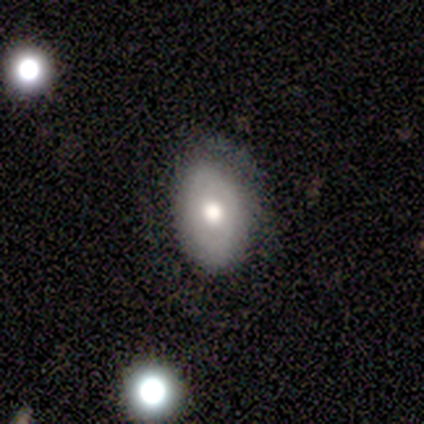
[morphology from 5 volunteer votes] Smooth or featured: featured or disk — 60% (smooth — 40%)
Edge-on disk: no — 67% (yes — 33%)
Bar: no — 100%
Spiral arms: yes — 50% (tied with no — 50%)
Spiral winding: tight — 100%
Spiral arm count: can't tell — 100%
Bulge size: moderate — 100%
Merging: none — 60% (minor disturbance — 40%)